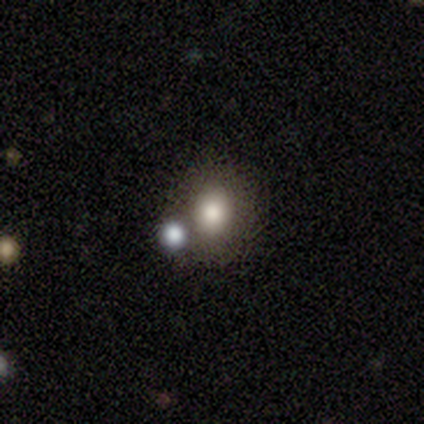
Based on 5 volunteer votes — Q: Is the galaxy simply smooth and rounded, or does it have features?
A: smooth — 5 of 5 (100%).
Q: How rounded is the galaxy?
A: round — 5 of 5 (100%).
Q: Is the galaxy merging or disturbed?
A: none — 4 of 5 (80%).